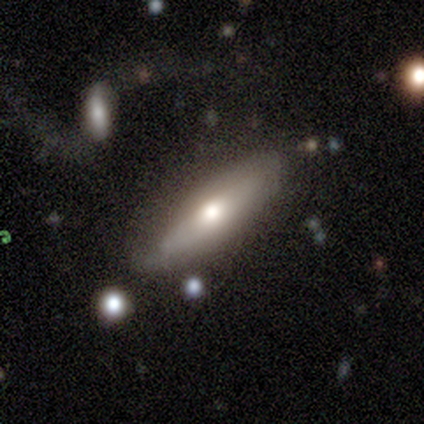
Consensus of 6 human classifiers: Volunteers were most divided on "smooth or featured": smooth: 67%, featured or disk: 33%, star or artifact: 0%. More confident: how rounded — cigar-shaped (75%); merging — none (67%).